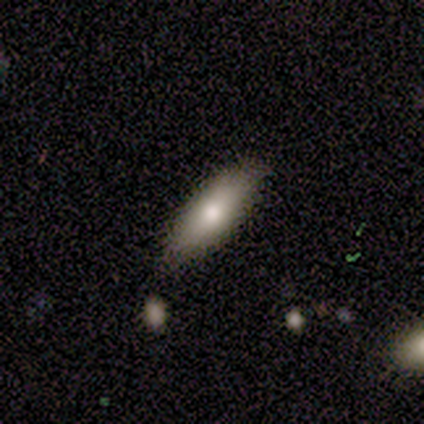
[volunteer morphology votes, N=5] Q: Smooth or featured?
A: smooth (80%); runner-up: featured or disk (20%)
Q: How rounded?
A: in between (100%)
Q: Merging?
A: none (80%); runner-up: minor disturbance (20%)